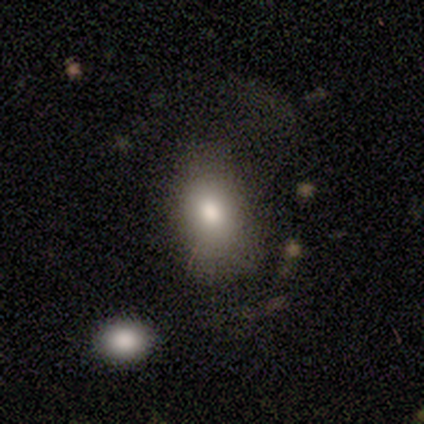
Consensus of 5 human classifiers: This appears to be a smooth galaxy with no disk features (60%) that is in between round and cigar-shaped (100%). Merging: none (60%).